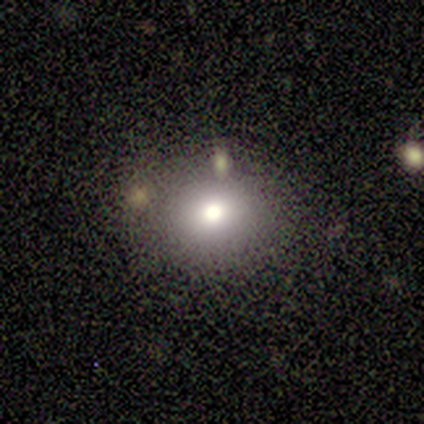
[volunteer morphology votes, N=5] type=smooth (80%); roundness=round (100%); merging=none (80%).